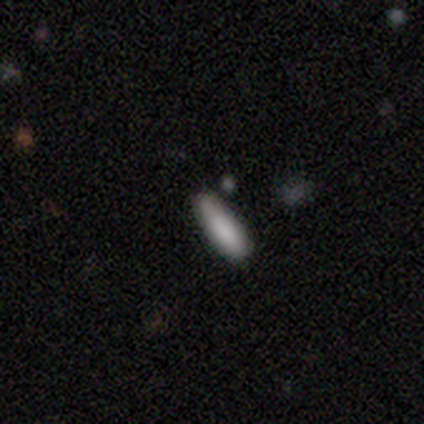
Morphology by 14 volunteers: Q: Smooth or featured?
A: smooth (93%); runner-up: featured or disk (7%)
Q: How rounded?
A: in between (54%); runner-up: cigar-shaped (46%)
Q: Merging?
A: none (71%); runner-up: minor disturbance (29%)